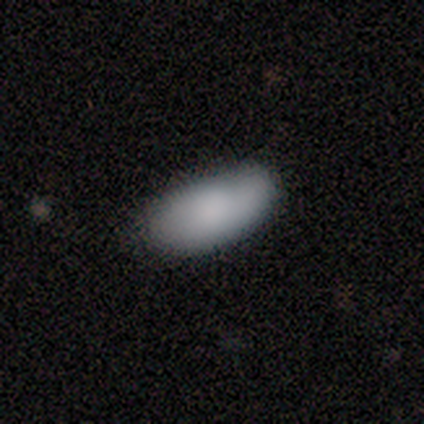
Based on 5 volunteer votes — This appears to be a smooth galaxy with no disk features (100%) that is in between round and cigar-shaped (100%). Merging: none (80%).